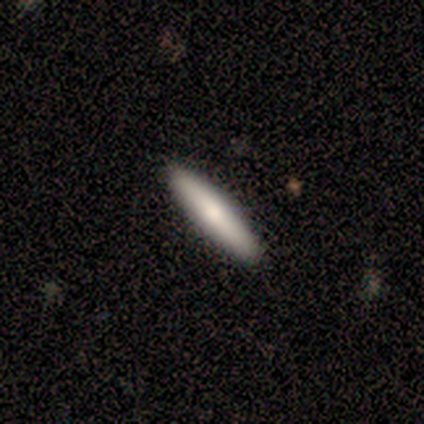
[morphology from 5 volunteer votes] Smooth or featured?
  - smooth: 60% *
  - featured or disk: 40%
  - star or artifact: 0%
How rounded?
  - cigar-shaped: 100% *
  - round: 0%
  - in between: 0%
Merging?
  - none: 100% *
  - minor disturbance: 0%
  - major disturbance: 0%
  - merger: 0%